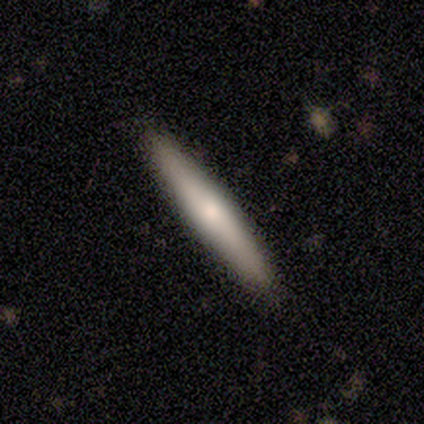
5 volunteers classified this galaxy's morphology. Q: Smooth or featured?
A: smooth (60%); runner-up: featured or disk (40%)
Q: How rounded?
A: cigar-shaped (100%)
Q: Merging?
A: none (100%)